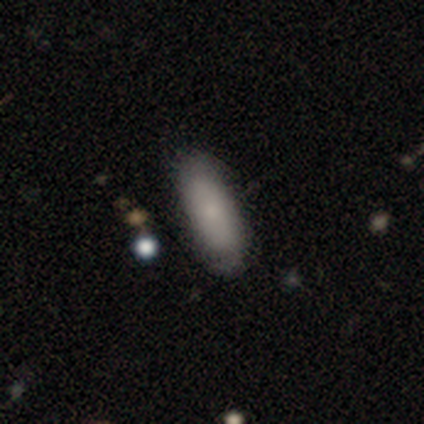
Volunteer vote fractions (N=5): Smooth or featured? smooth (80%)
How rounded? in between (75%)
Merging? none (60%)